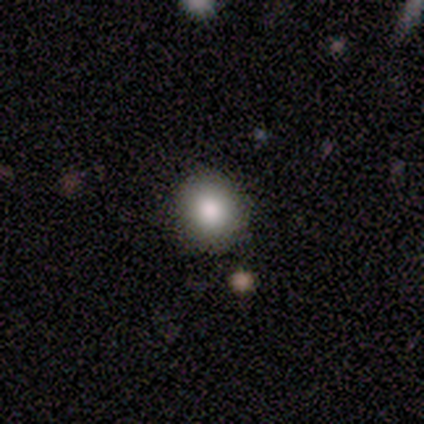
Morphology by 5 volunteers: type=smooth (100%); roundness=round (100%); merging=none (80%).